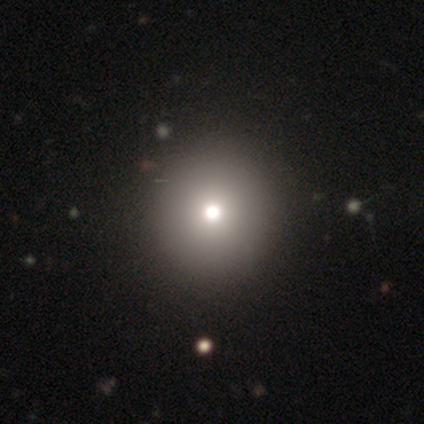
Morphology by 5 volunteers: smooth_or_featured: smooth (p=0.80) [alt: star or artifact p=0.20]
how_rounded: round (p=1.00)
merging: none (p=1.00)